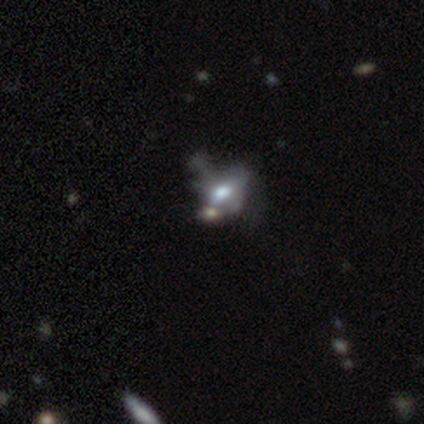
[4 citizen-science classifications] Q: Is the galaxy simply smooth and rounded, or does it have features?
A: featured or disk — 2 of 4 (50%).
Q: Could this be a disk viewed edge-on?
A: no — 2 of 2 (100%).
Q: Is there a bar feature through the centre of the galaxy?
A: weak — 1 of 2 (50%, tied with no).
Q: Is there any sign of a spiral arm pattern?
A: yes — 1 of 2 (50%, tied with no).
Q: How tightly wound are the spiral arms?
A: tight — 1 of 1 (100%).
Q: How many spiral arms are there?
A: can't tell — 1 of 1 (100%).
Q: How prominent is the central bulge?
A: dominant — 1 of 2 (50%, tied with moderate).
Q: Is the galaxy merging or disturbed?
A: major disturbance — 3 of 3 (100%).